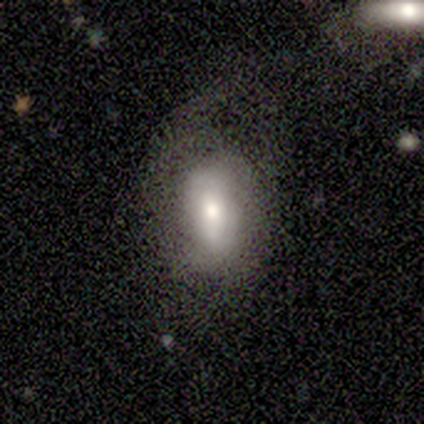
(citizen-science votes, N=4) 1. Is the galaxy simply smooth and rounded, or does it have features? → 100% smooth, 0% featured or disk, 0% star or artifact.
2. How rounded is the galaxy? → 100% in between, 0% round, 0% cigar-shaped.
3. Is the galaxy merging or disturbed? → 75% major disturbance, 25% minor disturbance, 0% none, 0% merger.